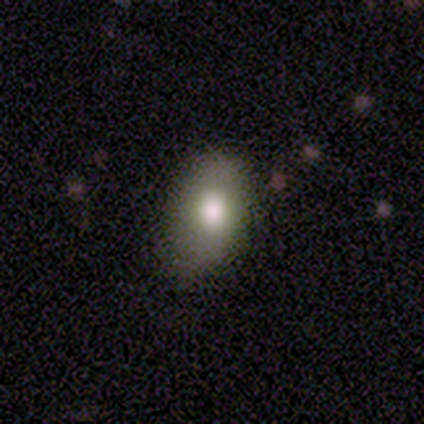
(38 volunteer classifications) A smooth galaxy with no disk features (74%) that is in between round and cigar-shaped (96%).

Vote fractions:
- Smooth or featured? smooth: 74% / featured or disk: 21% / star or artifact: 5%
- How rounded? in between: 96% / round: 4% / cigar-shaped: 0%
- Merging? none: 75% / minor disturbance: 22% / major disturbance: 3% / merger: 0%